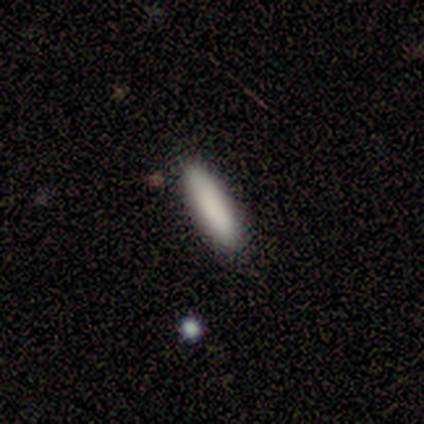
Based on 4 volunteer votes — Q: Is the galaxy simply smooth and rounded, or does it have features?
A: smooth — 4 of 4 (100%).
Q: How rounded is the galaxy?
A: in between — 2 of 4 (50%, tied with cigar-shaped).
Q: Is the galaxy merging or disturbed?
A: none — 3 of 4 (75%).